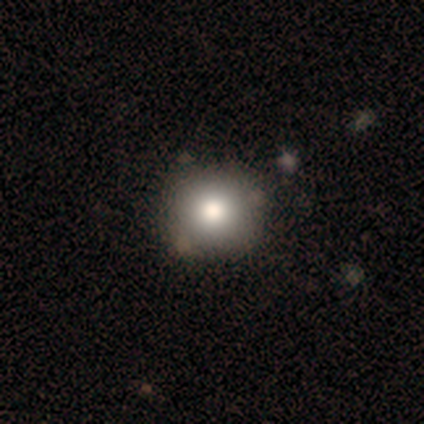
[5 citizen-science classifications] Q: Smooth or featured?
A: smooth (80%); runner-up: star or artifact (20%)
Q: How rounded?
A: round (100%)
Q: Merging?
A: none (100%)